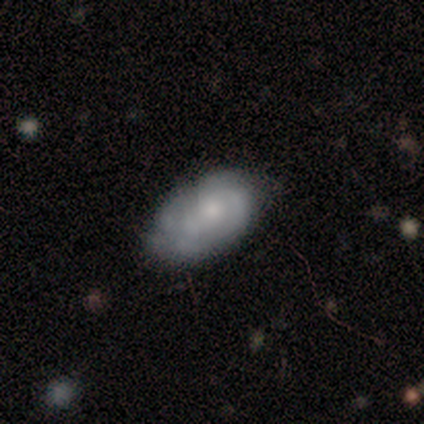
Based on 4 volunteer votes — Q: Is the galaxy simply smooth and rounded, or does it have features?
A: featured or disk — 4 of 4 (100%).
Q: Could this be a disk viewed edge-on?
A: no — 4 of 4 (100%).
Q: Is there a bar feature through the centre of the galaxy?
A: no — 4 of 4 (100%).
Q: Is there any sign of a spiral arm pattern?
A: yes — 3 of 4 (75%).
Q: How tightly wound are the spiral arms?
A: tight — 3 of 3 (100%).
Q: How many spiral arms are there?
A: can't tell — 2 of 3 (67%).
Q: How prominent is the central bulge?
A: none — 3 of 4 (75%).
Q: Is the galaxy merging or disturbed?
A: minor disturbance — 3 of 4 (75%).